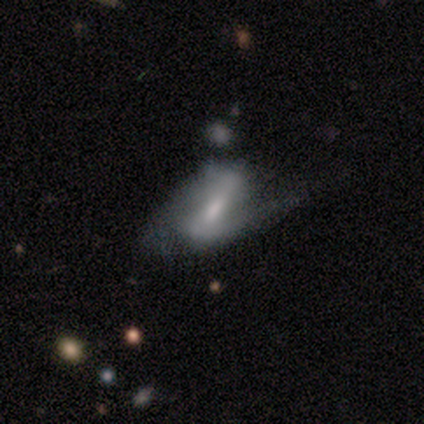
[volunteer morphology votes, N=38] Smooth or featured?
  - featured or disk: 71% *
  - smooth: 24%
  - star or artifact: 5%
Edge-on disk?
  - no: 96% *
  - yes: 4%
Bar?
  - strong: 54% *
  - weak: 42%
  - no: 4%
Spiral arms?
  - yes: 92% *
  - no: 8%
Spiral winding?
  - medium: 50% *
  - loose: 42%
  - tight: 8%
Spiral arm count?
  - 2: 88% *
  - 1: 12%
  - 3: 0%
  - 4: 0%
  - more than 4: 0%
  - can't tell: 0%
Bulge size?
  - moderate: 50% *
  - small: 31%
  - large: 8%
  - none: 8%
  - dominant: 4%
Merging?
  - none: 44% *
  - minor disturbance: 33%
  - major disturbance: 19%
  - merger: 3%